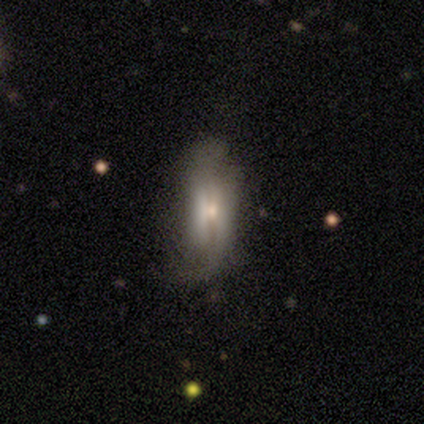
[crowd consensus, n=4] Smooth or featured? smooth (75%)
How rounded? in between (100%)
Merging? none (100%)